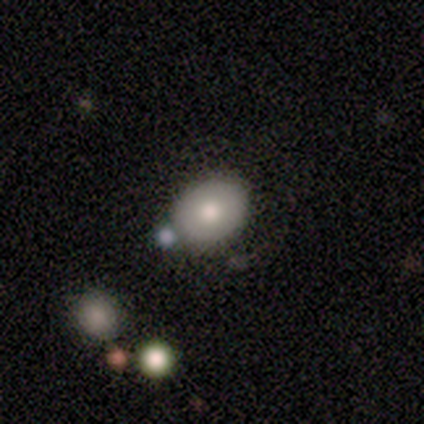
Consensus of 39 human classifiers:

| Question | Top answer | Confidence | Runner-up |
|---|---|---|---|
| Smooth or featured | smooth | 85% | featured or disk (13%) |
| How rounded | in between | 73% | round (27%) |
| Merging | none | 66% | merger (21%) |